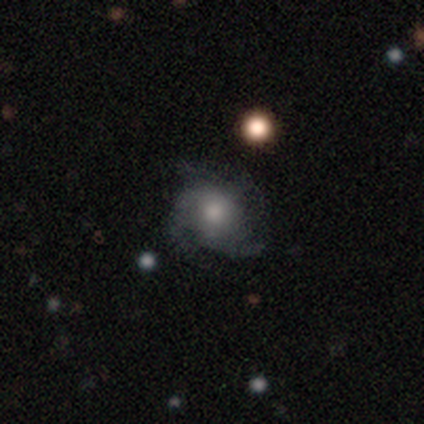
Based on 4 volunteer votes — Q: Smooth or featured?
A: featured or disk (75%); runner-up: smooth (25%)
Q: Edge-on disk?
A: no (100%)
Q: Bar?
A: no (67%); runner-up: weak (33%)
Q: Spiral arms?
A: yes (100%)
Q: Spiral winding?
A: medium (67%); runner-up: tight (33%)
Q: Spiral arm count?
A: 4 (67%); runner-up: 3 (33%)
Q: Bulge size?
A: moderate (67%); runner-up: small (33%)
Q: Merging?
A: none (100%)